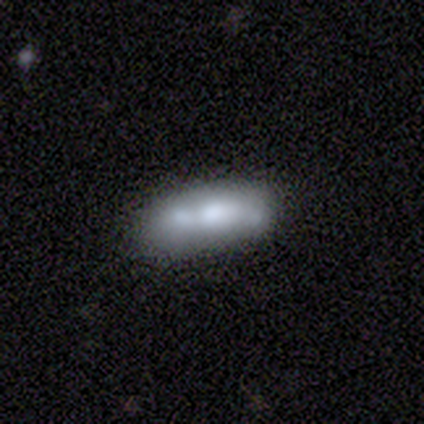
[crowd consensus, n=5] smooth 100%, featured or disk 0%, star or artifact 0%. Down the decision tree: how rounded — in between (60%); merging — none (60%).